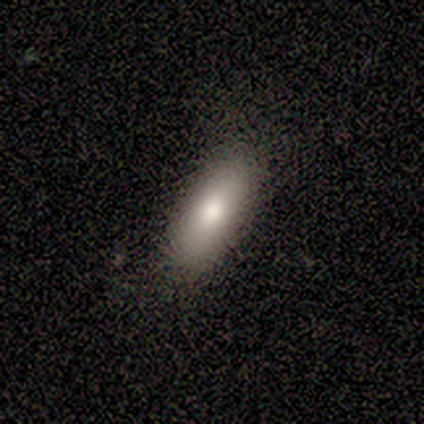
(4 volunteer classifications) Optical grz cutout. It shows a smooth galaxy with no disk features (75%) that is in between round and cigar-shaped (100%). Merging: none (50%, tied with minor disturbance).